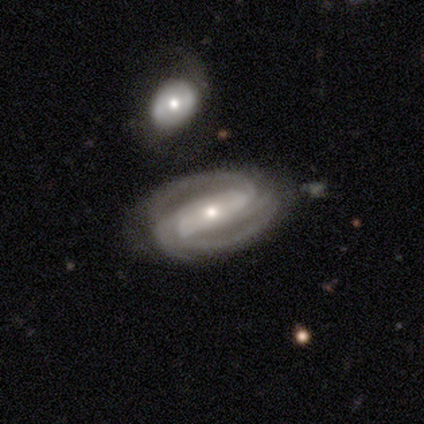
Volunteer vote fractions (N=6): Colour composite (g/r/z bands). It shows a featured or disk galaxy (83%) with a strong bar (60%), 2 (100%) medium (60%) spiral arms (100%) and a moderate central bulge (60%). Merging: none (83%).